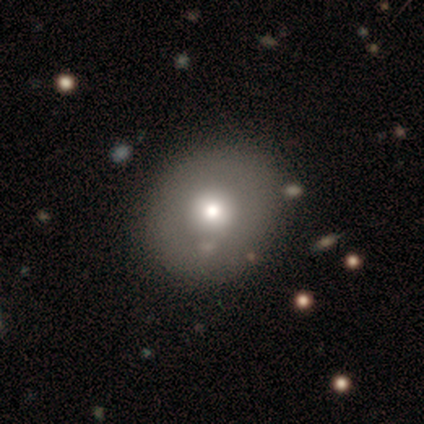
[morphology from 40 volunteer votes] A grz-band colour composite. It shows a smooth galaxy with no disk features (45%) that is round (72%). Merging: none (91%).